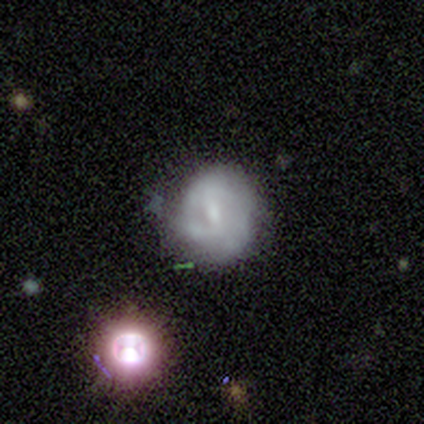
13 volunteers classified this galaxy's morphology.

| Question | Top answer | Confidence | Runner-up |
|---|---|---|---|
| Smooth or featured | featured or disk | 69% | smooth (23%) |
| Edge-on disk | no | 100% | — |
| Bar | weak | 67% | strong (22%) |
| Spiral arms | yes | 78% | no (22%) |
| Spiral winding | tight | 86% | loose (14%) |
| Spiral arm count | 2 | 43% | can't tell (29%) |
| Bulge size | moderate | 56% | small (44%) |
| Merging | none | 58% | minor disturbance (25%) |